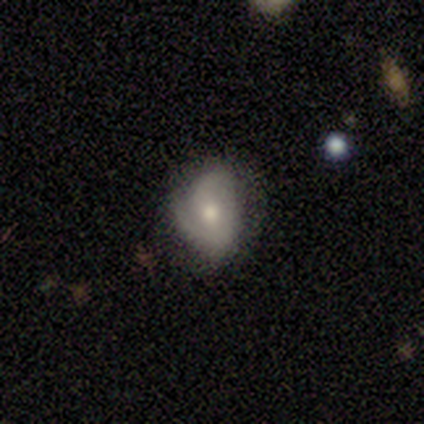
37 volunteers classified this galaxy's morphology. Smooth or featured? 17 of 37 (46%) said featured or disk. Edge-on disk? 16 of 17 (94%) said no. Bar? 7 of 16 (44%) said weak. Spiral arms? 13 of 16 (81%) said yes. Spiral winding? 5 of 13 (38%) said tight. Spiral arm count? 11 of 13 (85%) said 2. Bulge size? 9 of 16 (56%) said moderate. Merging? 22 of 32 (69%) said none.